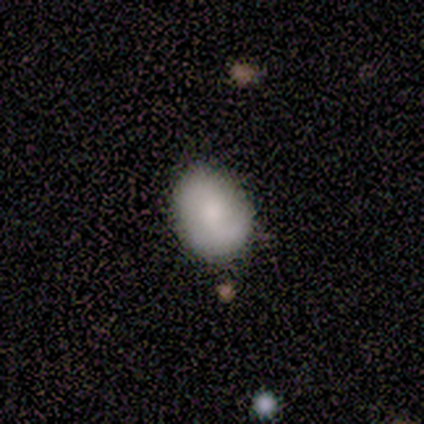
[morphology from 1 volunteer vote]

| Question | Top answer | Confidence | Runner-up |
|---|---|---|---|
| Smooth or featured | smooth | 100% | — |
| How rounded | in between | 100% | — |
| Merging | none | 100% | — |